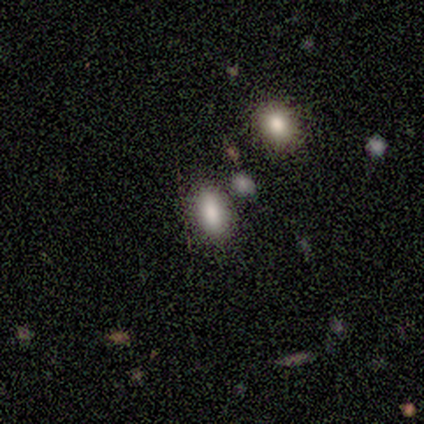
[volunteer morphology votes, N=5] A smooth galaxy with no disk features (80%) that is in between round and cigar-shaped (100%). Merging: none (50%).